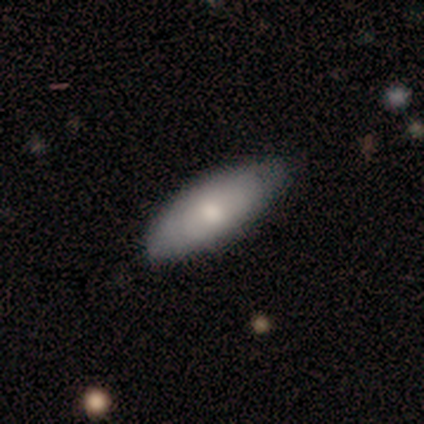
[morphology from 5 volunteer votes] type=smooth (40%, tied with featured or disk); roundness=in between (100%); merging=none (75%).